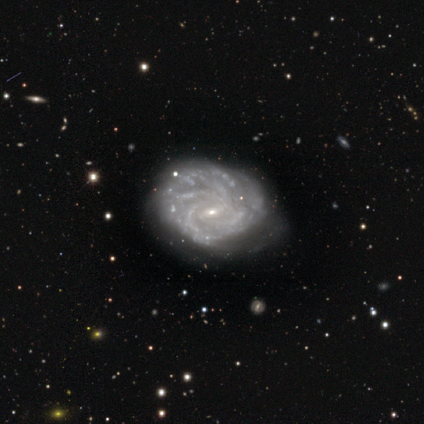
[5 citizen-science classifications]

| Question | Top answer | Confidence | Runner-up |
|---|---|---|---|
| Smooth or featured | featured or disk | 100% | — |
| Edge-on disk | no | 100% | — |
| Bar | weak | 80% | no (20%) |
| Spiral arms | yes | 80% | no (20%) |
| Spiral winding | tight | 75% | medium (25%) |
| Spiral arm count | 3 | 75% | more than 4 (25%) |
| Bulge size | small | 100% | — |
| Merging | minor disturbance | 60% | none (40%) |